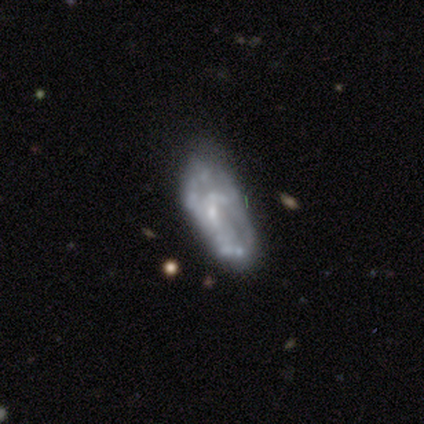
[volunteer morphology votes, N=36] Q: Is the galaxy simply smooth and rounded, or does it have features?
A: featured or disk — 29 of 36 (81%).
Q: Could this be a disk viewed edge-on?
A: no — 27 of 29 (93%).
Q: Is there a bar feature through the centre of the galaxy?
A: no — 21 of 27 (78%).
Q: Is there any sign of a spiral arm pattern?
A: no — 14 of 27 (52%).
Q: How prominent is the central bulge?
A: none — 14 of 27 (52%).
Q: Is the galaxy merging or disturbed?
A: none — 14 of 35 (40%).